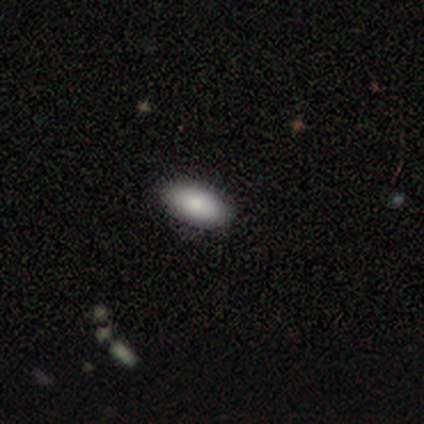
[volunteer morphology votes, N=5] Smooth or featured? 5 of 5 (100%) said smooth. How rounded? 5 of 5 (100%) said in between. Merging? 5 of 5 (100%) said none.